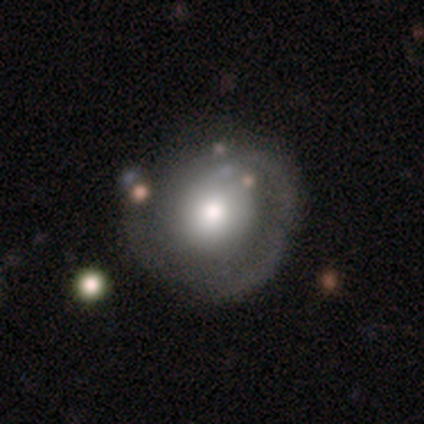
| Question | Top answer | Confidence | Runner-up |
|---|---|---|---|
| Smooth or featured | featured or disk | 49% | smooth (45%) |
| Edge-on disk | no | 93% | yes (7%) |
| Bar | no | 93% | weak (7%) |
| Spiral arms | no | 67% | yes (33%) |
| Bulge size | moderate | 40% | large (33%) |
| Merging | none | 59% | major disturbance (19%) |